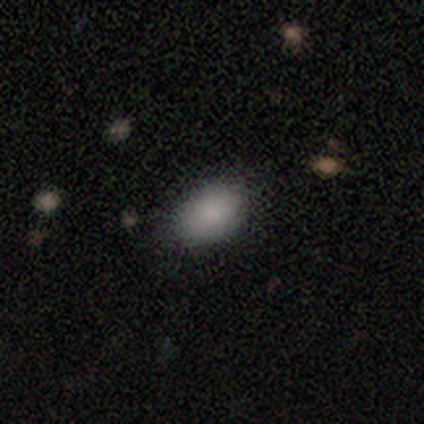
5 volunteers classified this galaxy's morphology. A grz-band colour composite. It shows a smooth galaxy with no disk features (100%) that is in between round and cigar-shaped (100%). Merging: none (80%).